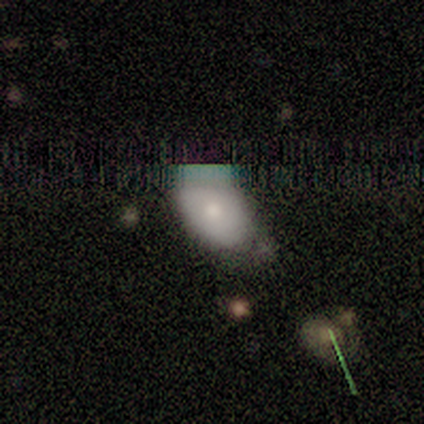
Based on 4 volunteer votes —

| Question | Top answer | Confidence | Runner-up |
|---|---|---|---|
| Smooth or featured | smooth | 75% | star or artifact (25%) |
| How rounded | in between | 100% | — |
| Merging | none | 100% | — |